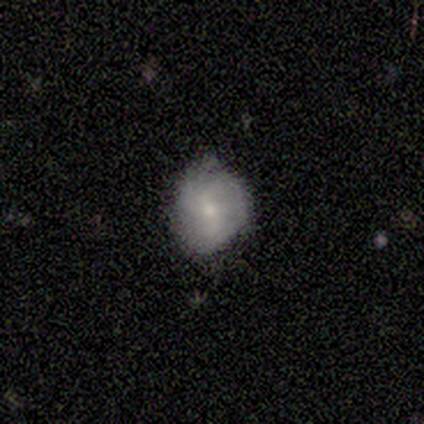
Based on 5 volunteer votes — A smooth galaxy with no disk features (40%, tied with featured or disk) that is round (100%). Merging: none (100%).